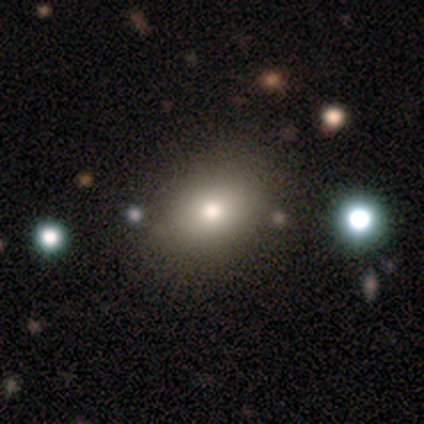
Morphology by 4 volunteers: type=smooth (100%); roundness=round (75%); merging=none (50%).